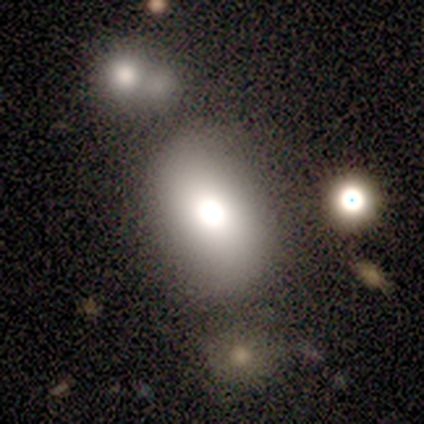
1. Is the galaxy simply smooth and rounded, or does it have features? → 60% smooth, 20% featured or disk, 20% star or artifact.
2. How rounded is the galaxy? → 67% in between, 33% round, 0% cigar-shaped.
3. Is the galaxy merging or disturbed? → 100% none, 0% minor disturbance, 0% major disturbance, 0% merger.